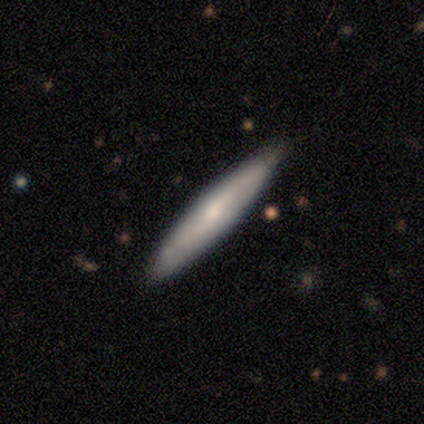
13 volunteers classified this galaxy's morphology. smooth_or_featured: featured or disk (p=0.54) [alt: smooth p=0.38]
disk_edge_on: yes (p=1.00)
edge_on_bulge: rounded (p=0.57) [alt: none p=0.43]
merging: none (p=1.00)